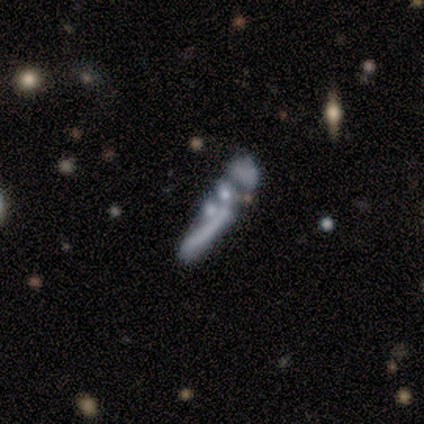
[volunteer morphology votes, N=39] Overall: featured or disk (49%; smooth 28%). Edge-on disk: no (84%). Bar: no (81%). Spiral arms: no (94%). Bulge size: none (56%; small 19%). Merging: none (37%, tied with merger).